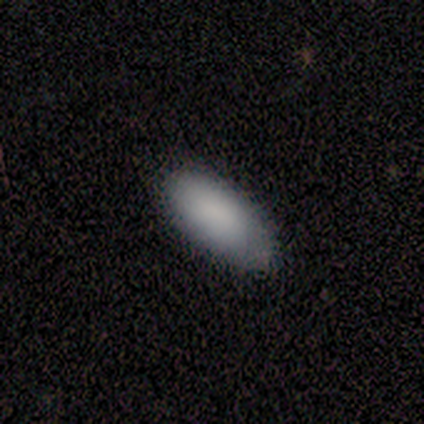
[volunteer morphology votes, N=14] Overall: smooth (93%). How rounded: in between (100%). Merging: none (79%).